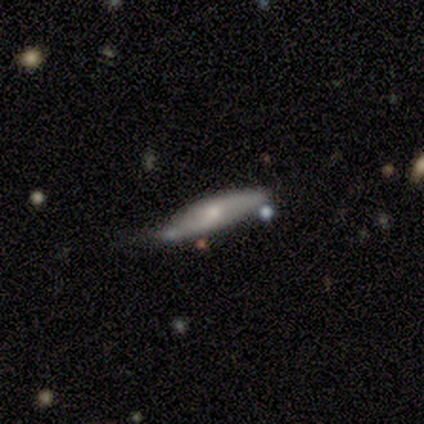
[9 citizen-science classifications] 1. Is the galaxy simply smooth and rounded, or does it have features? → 78% featured or disk, 22% smooth, 0% star or artifact.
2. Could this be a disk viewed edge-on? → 57% no, 43% yes.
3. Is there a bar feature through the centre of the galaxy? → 75% no, 25% weak, 0% strong.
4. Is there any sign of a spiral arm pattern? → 50% yes (tied), 50% no (tied).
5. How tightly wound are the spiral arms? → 100% loose, 0% tight, 0% medium.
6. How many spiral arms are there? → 100% 2, 0% 1, 0% 3, 0% 4, 0% more than 4, 0% can't tell.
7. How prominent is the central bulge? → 75% small, 25% moderate, 0% dominant, 0% large, 0% none.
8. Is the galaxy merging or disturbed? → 56% none, 33% minor disturbance, 11% major disturbance, 0% merger.